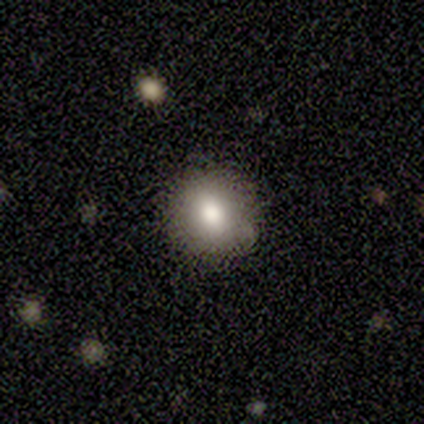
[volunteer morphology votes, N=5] Q: Smooth or featured?
A: smooth (60%); runner-up: featured or disk (40%)
Q: How rounded?
A: round (100%)
Q: Merging?
A: none (100%)